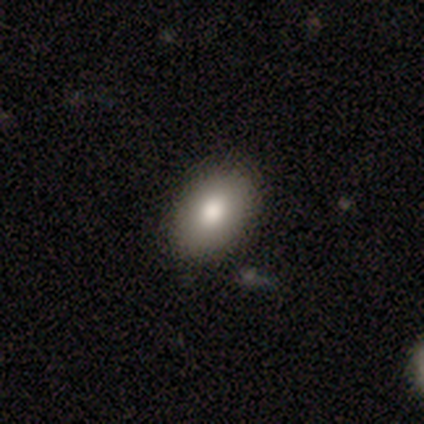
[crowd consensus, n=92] Smooth or featured: smooth — 84% (star or artifact — 9%)
How rounded: in between — 88% (round — 12%)
Merging: none — 92% (minor disturbance — 7%)